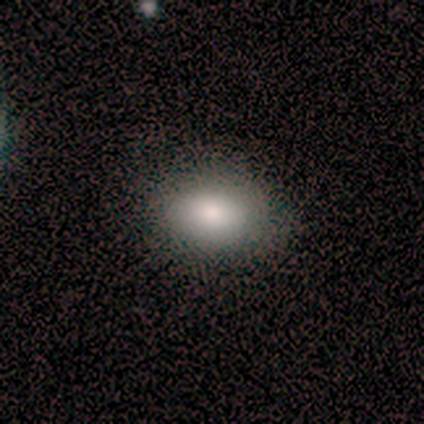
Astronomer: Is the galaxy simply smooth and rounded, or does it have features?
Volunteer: smooth — 80%.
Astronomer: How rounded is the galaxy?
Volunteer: in between — 75%.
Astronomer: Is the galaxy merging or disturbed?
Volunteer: none — 80%.